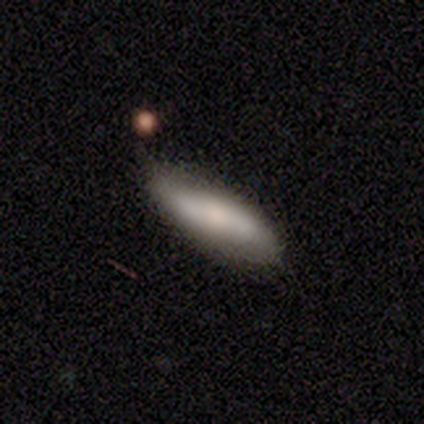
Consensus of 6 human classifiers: Volunteers were most divided on "bar" (2-way tie): strong: 50%, no: 50%, weak: 0%; "spiral winding" (2-way tie): tight: 50%, loose: 50%, medium: 0%; "spiral arm count" (2-way tie): 2: 50%, can't tell: 50%, 1: 0%, 3: 0%, 4: 0%, more than 4: 0%. More confident: spiral arms — yes (100%); bulge size — moderate (100%); merging — none (80%); edge-on disk — no (67%); smooth or featured — featured or disk (50%).